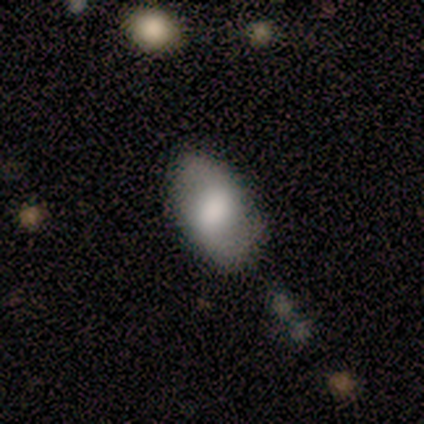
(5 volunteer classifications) A smooth galaxy with no disk features (80%) that is in between round and cigar-shaped (75%). Merging: minor disturbance (60%).